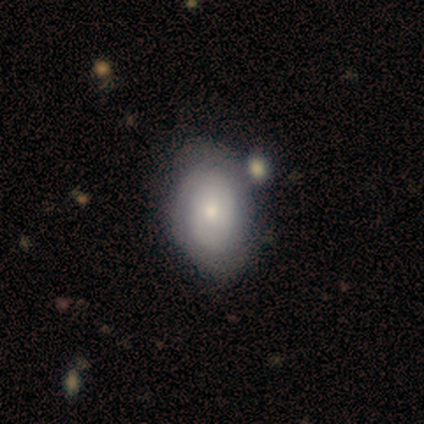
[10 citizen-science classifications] This appears to be a smooth galaxy with no disk features (50%, tied with featured or disk) that is in between round and cigar-shaped (100%). Merging: none (80%).